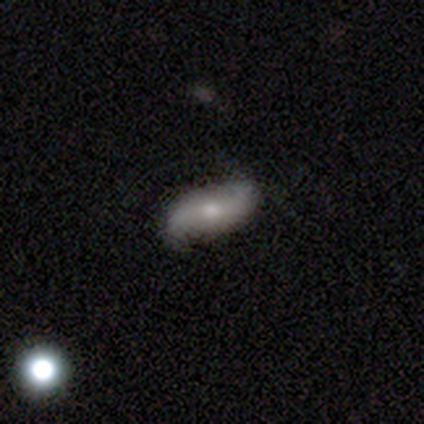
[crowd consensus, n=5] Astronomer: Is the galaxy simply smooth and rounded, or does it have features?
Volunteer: featured or disk — 60% (runner-up: smooth, 40%).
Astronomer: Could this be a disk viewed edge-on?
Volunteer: no — 100%.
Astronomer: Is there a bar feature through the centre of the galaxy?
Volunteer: no — 100%.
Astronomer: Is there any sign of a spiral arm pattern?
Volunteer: yes — 67%.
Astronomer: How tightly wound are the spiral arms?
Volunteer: loose — 100%.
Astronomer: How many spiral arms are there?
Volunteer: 2 — 100%.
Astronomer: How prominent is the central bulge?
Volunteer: small — 67%.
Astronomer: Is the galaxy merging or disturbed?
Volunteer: none — 100%.